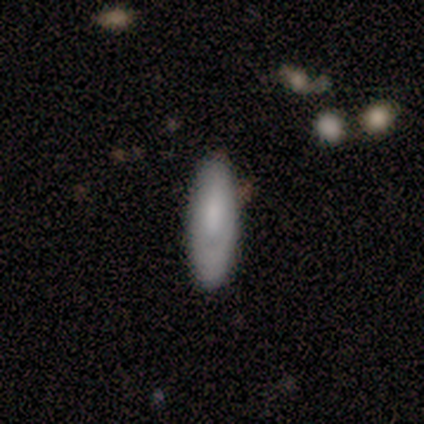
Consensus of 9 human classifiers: This is likely a smooth galaxy (78%). How rounded: likely in between (71%). Merging: clearly none (100%).